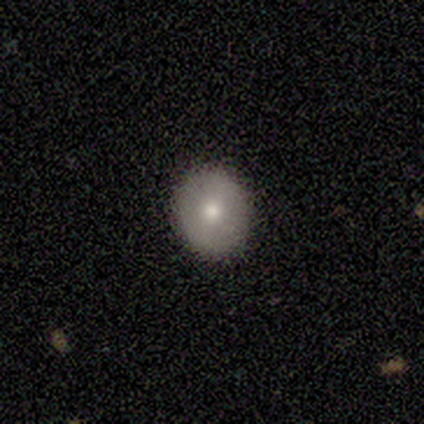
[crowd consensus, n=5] Volunteers were most divided on "smooth or featured": smooth: 60%, featured or disk: 20%, star or artifact: 20%. More confident: how rounded — round (100%); merging — none (100%).